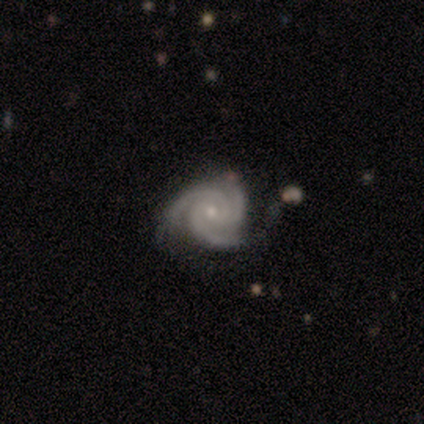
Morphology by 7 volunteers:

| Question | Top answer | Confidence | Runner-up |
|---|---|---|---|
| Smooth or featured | featured or disk | 100% | — |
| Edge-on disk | no | 100% | — |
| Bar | no | 86% | weak (14%) |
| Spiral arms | yes | 100% | — |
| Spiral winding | tight | 71% | medium (29%) |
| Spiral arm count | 3 | 100% | — |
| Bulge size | small | 100% | — |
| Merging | none | 71% | minor disturbance (14%) |